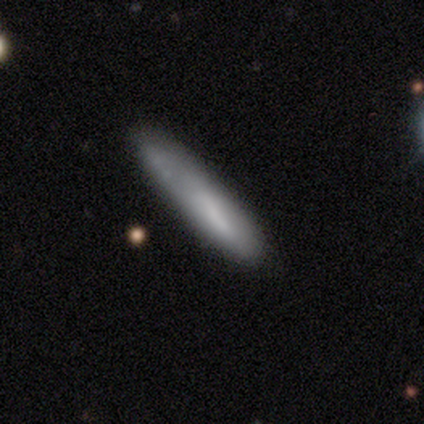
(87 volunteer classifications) Overall: smooth (76%). How rounded: cigar-shaped (86%). Merging: none (54%; minor disturbance 23%).